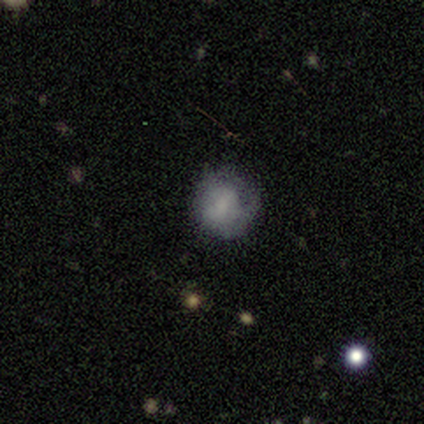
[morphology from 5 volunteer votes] smooth-or-featured: smooth: 40% (tied) | featured or disk: 40% (tied) | star or artifact: 20%
  how-rounded: round: 100% | in between: 0% | cigar-shaped: 0%
  merging: none: 100% | minor disturbance: 0% | major disturbance: 0% | merger: 0%